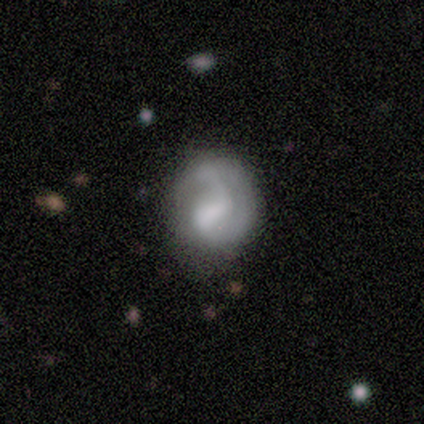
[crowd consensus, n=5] Overall: featured or disk (80%). Edge-on disk: no (100%). Bar: weak (100%). Spiral arms: yes (50%, tied with no). Spiral arm count: 1 (100%). Spiral winding: loose (100%). Bulge size: moderate (50%; large 25%). Merging: none (60%; minor disturbance 40%).